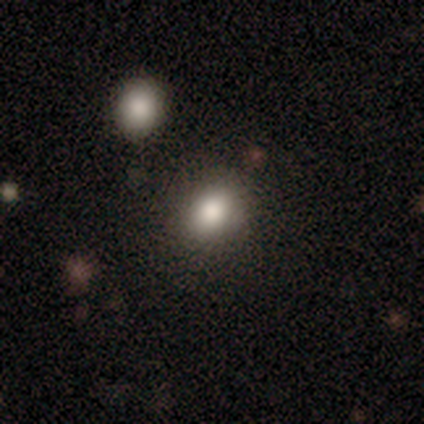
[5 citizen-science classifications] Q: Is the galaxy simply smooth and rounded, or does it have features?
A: smooth — 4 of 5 (80%).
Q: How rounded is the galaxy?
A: in between — 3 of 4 (75%).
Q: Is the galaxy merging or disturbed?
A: none — 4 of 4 (100%).